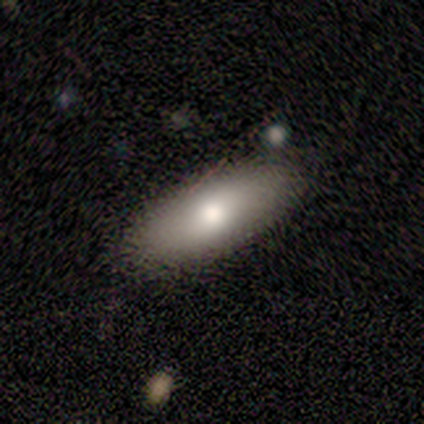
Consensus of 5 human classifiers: smooth 80%, featured or disk 20%, star or artifact 0%. Down the decision tree: how rounded — in between (75%); merging — none (100%).